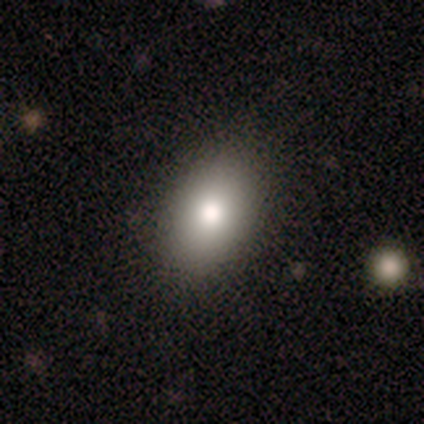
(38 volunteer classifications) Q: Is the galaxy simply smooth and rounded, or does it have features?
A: smooth — 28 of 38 (74%).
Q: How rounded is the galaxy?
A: in between — 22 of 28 (79%).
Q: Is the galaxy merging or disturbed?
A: none — 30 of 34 (88%).